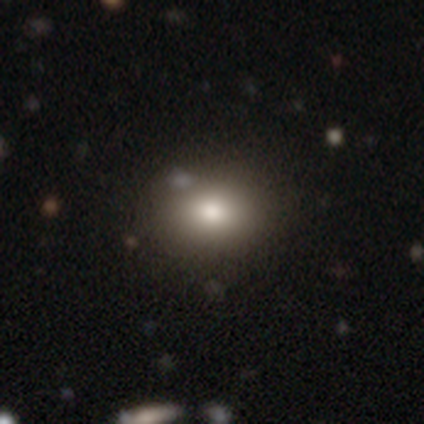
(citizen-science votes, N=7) A smooth galaxy with no disk features (71%) that is in between round and cigar-shaped (100%).

Vote fractions:
- Smooth or featured? smooth: 71% / star or artifact: 29% / featured or disk: 0%
- How rounded? in between: 100% / round: 0% / cigar-shaped: 0%
- Merging? none: 80% / minor disturbance: 20% / major disturbance: 0% / merger: 0%